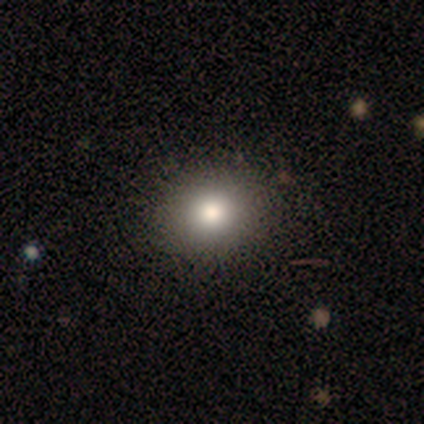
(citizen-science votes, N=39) This is clearly a smooth galaxy (90%). How rounded: likely round (77%). Merging: likely none (74%).